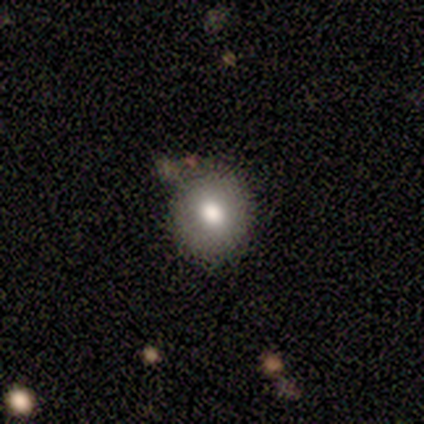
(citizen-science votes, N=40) Smooth or featured: smooth — 62% (featured or disk — 28%)
How rounded: round — 84% (in between — 16%)
Merging: none — 64% (minor disturbance — 22%)